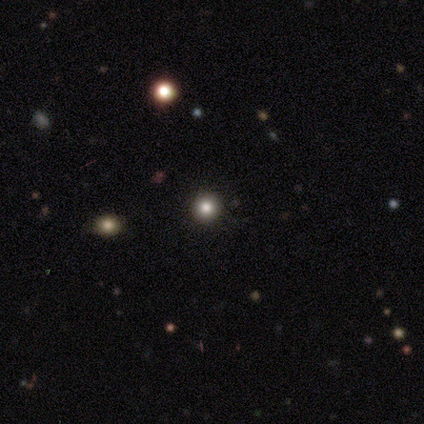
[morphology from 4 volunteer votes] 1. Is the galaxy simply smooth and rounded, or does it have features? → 100% smooth, 0% featured or disk, 0% star or artifact.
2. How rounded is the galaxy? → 100% round, 0% in between, 0% cigar-shaped.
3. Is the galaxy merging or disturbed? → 100% none, 0% minor disturbance, 0% major disturbance, 0% merger.